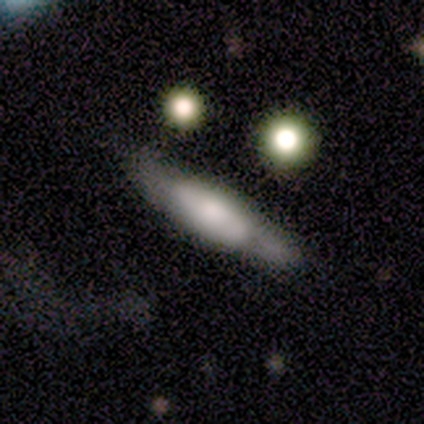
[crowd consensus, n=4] A smooth galaxy with no disk features (50%, tied with featured or disk) that is cigar-shaped (100%). Merging: none (50%).